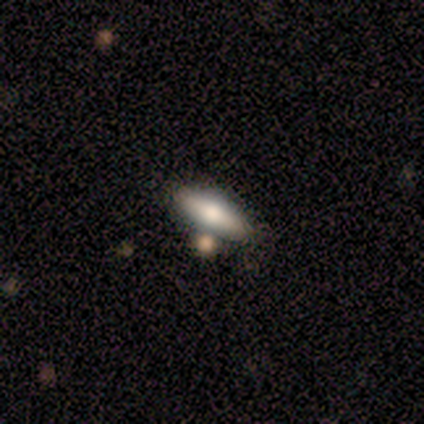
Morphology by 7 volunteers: smooth 71%, featured or disk 29%, star or artifact 0%. Down the decision tree: how rounded — cigar-shaped (80%); merging — none (71%).